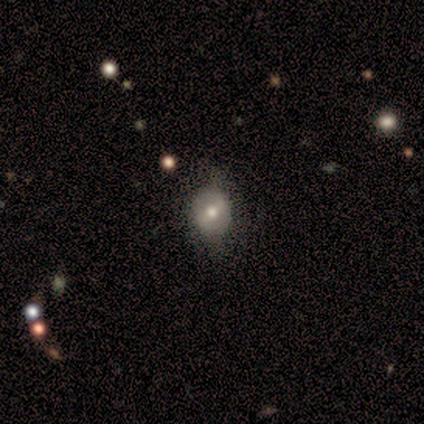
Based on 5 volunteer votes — smooth_or_featured: featured or disk (p=0.80) [alt: star or artifact p=0.20]
disk_edge_on: no (p=1.00)
bar: weak (p=0.50) [tied with: no p=0.50]
has_spiral_arms: no (p=0.75) [alt: yes p=0.25]
bulge_size: moderate (p=1.00)
merging: none (p=1.00)